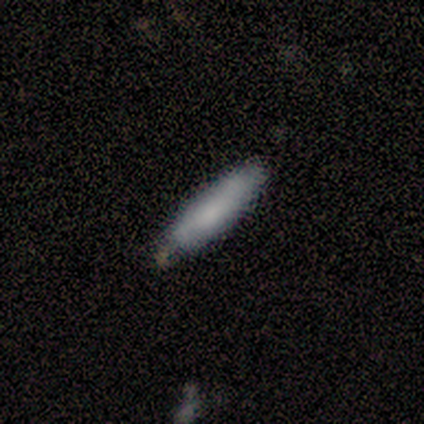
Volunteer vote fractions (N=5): smooth_or_featured: smooth (p=0.80) [alt: star or artifact p=0.20]
how_rounded: cigar-shaped (p=0.75) [alt: in between p=0.25]
merging: none (p=0.50) [tied with: minor disturbance p=0.50]